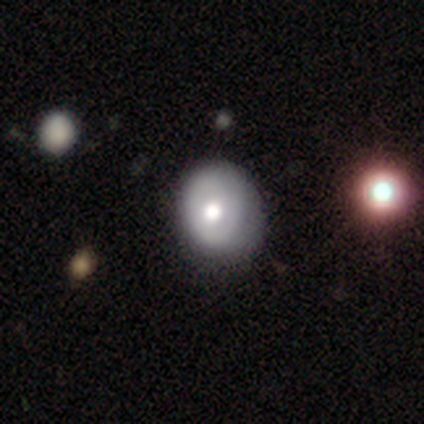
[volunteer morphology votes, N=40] Q: Smooth or featured?
A: featured or disk (55%); runner-up: smooth (42%)
Q: Edge-on disk?
A: no (100%)
Q: Bar?
A: no (86%); runner-up: weak (9%)
Q: Spiral arms?
A: no (64%); runner-up: yes (36%)
Q: Bulge size?
A: moderate (64%); runner-up: large (32%)
Q: Merging?
A: none (49%); runner-up: minor disturbance (33%)